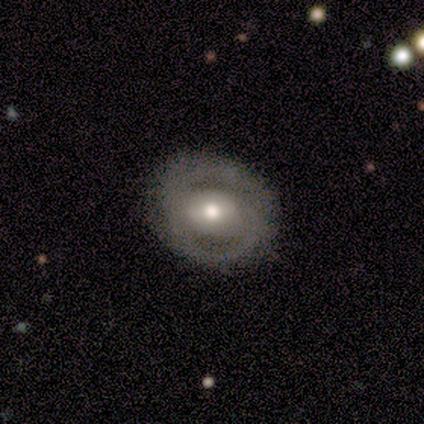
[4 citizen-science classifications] Smooth or featured: featured or disk — 100%
Edge-on disk: no — 100%
Bar: weak — 50% (strong — 25%)
Spiral arms: yes — 100%
Spiral winding: medium — 50% (tight — 25%)
Spiral arm count: 2 — 50% (1 — 25%)
Bulge size: moderate — 50% (large — 25%)
Merging: none — 100%